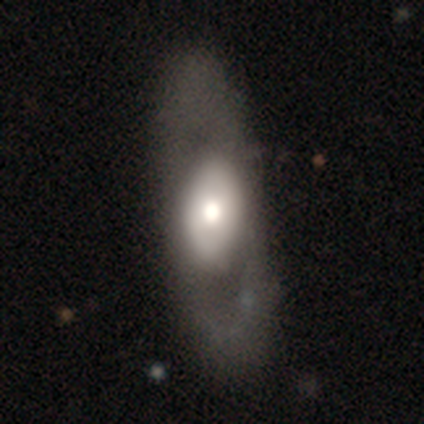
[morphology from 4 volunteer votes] smooth 75%, featured or disk 25%, star or artifact 0%. Down the decision tree: how rounded — in between (100%); merging — none (75%).